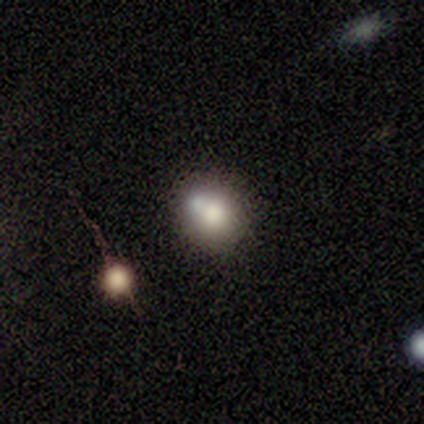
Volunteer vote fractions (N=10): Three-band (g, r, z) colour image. It shows a smooth galaxy with no disk features (70%) that is round (86%). Merging: none (50%).